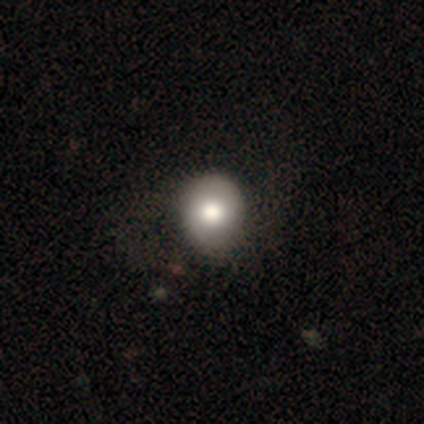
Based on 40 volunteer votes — This is likely a smooth galaxy (68%). How rounded: clearly round (89%). Merging: marginally none (35%).